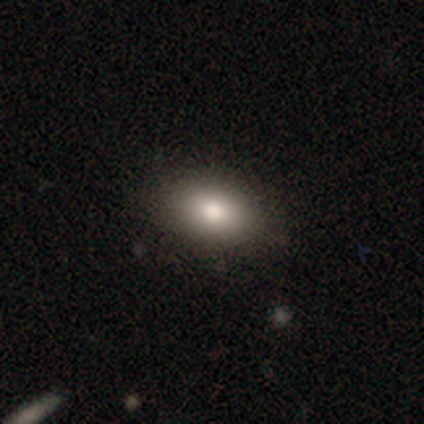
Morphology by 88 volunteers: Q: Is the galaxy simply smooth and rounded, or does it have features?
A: smooth — 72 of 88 (82%).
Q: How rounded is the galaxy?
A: in between — 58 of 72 (81%).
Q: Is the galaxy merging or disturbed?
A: none — 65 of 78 (83%).